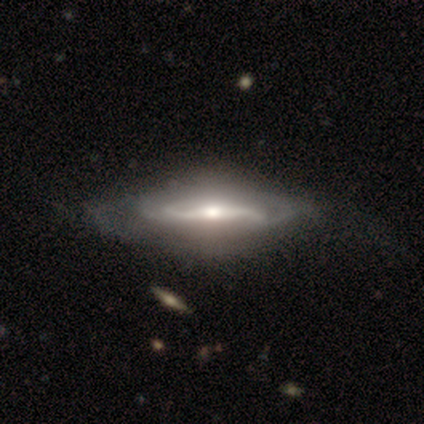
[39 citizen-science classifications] Q: Smooth or featured?
A: featured or disk (97%); runner-up: star or artifact (3%)
Q: Edge-on disk?
A: no (74%); runner-up: yes (26%)
Q: Bar?
A: strong (57%); runner-up: weak (25%)
Q: Spiral arms?
A: yes (89%); runner-up: no (11%)
Q: Spiral winding?
A: medium (44%); runner-up: loose (32%)
Q: Spiral arm count?
A: 2 (80%); runner-up: can't tell (16%)
Q: Bulge size?
A: moderate (54%); runner-up: small (36%)
Q: Merging?
A: none (55%); runner-up: minor disturbance (11%)